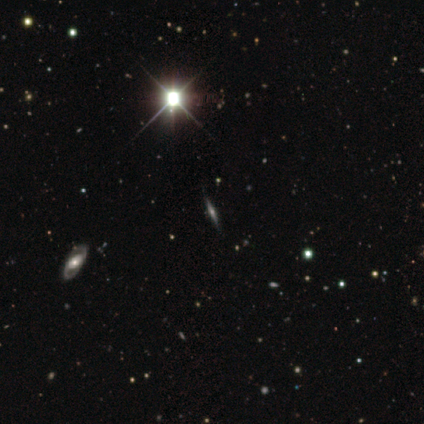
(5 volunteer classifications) smooth_or_featured: featured or disk (p=0.40) [tied with: star or artifact p=0.40]
disk_edge_on: yes (p=1.00)
edge_on_bulge: boxy (p=1.00)
merging: major disturbance (p=0.67) [alt: none p=0.33]